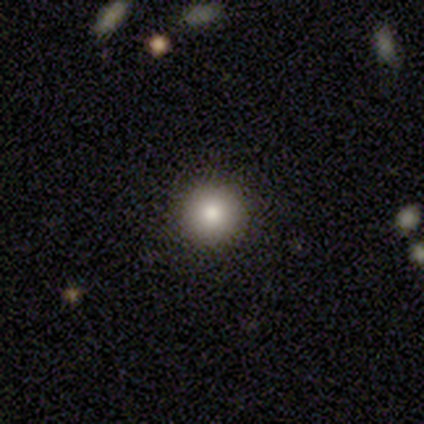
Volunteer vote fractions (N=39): Morphology: type=smooth (79%); roundness=round (100%); merging=none (94%).